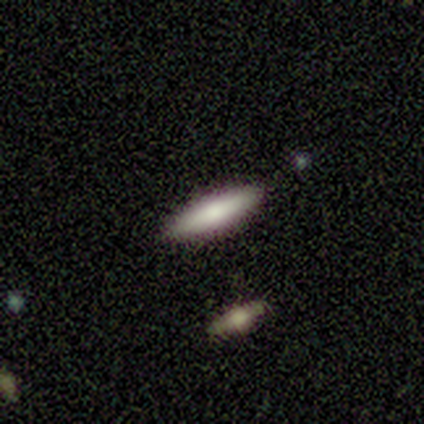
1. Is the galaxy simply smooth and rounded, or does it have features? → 80% smooth, 20% featured or disk, 0% star or artifact.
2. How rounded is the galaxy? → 100% cigar-shaped, 0% round, 0% in between.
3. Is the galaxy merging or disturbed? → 100% none, 0% minor disturbance, 0% major disturbance, 0% merger.